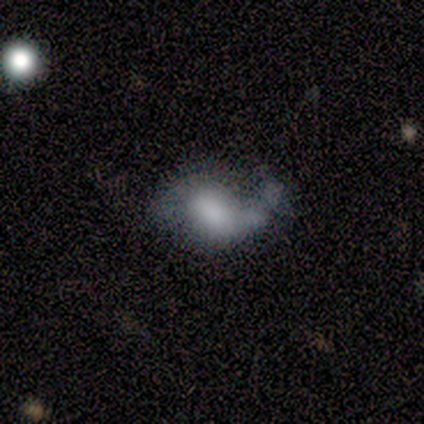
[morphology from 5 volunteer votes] Q: Smooth or featured?
A: featured or disk (60%); runner-up: smooth (40%)
Q: Edge-on disk?
A: no (100%)
Q: Bar?
A: no (67%); runner-up: strong (33%)
Q: Spiral arms?
A: yes (67%); runner-up: no (33%)
Q: Spiral winding?
A: loose (100%)
Q: Spiral arm count?
A: 1 (50%); tied with: 2 (50%)
Q: Bulge size?
A: large (67%); runner-up: small (33%)
Q: Merging?
A: minor disturbance (40%); tied with: major disturbance (40%)